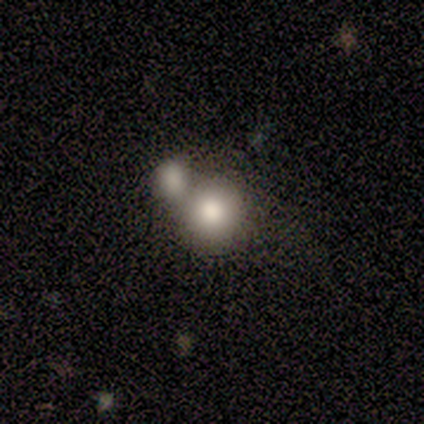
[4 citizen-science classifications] Smooth or featured? 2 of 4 (50%) said smooth. How rounded? 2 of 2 (100%) said round. Merging? 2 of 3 (67%) said merger.